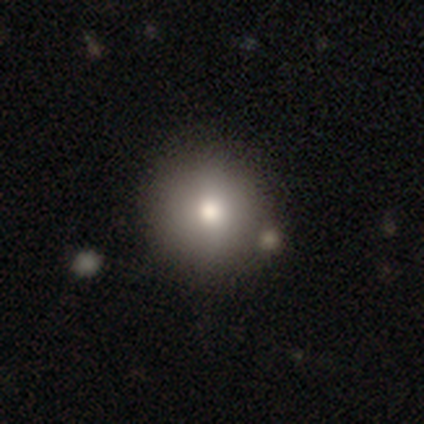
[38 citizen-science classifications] A smooth galaxy with no disk features (76%) that is round (100%).

Vote fractions:
- Smooth or featured? smooth: 76% / featured or disk: 13% / star or artifact: 11%
- How rounded? round: 100% / in between: 0% / cigar-shaped: 0%
- Merging? none: 76% / minor disturbance: 18% / merger: 6% / major disturbance: 0%